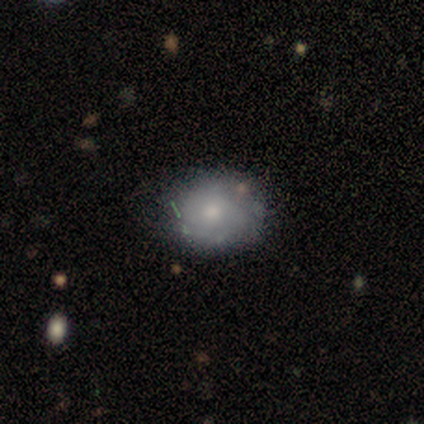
Smooth or featured: smooth — 50% (tied with featured or disk — 50%)
How rounded: in between — 100%
Merging: none — 50% (tied with minor disturbance — 50%)